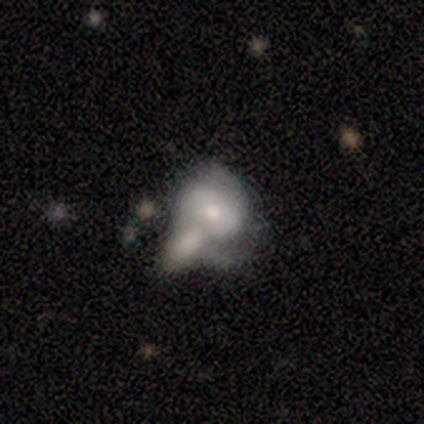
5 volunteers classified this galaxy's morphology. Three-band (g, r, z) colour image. It shows a featured or disk galaxy (60%) with no bar (100%), no spiral arms (67%) and a moderate central bulge (100%). Merging: minor disturbance (60%).